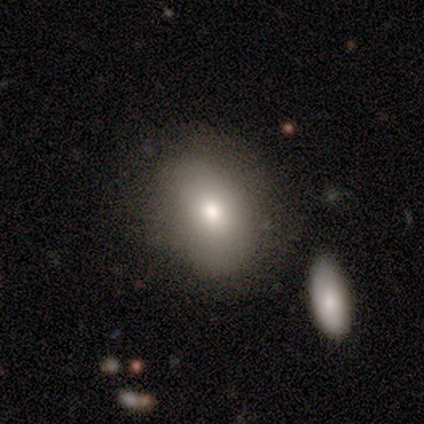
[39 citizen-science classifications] Q: Smooth or featured?
A: smooth (79%); runner-up: featured or disk (13%)
Q: How rounded?
A: in between (55%); runner-up: round (45%)
Q: Merging?
A: none (67%); runner-up: minor disturbance (17%)